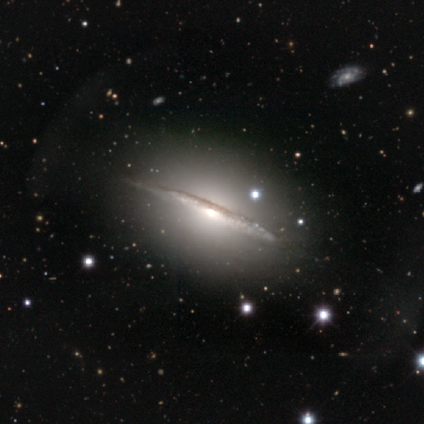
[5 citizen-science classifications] Morphology: type=featured or disk (100%); edge-on=yes (100%); edge-on bulge=rounded (100%); merging=none (60%).